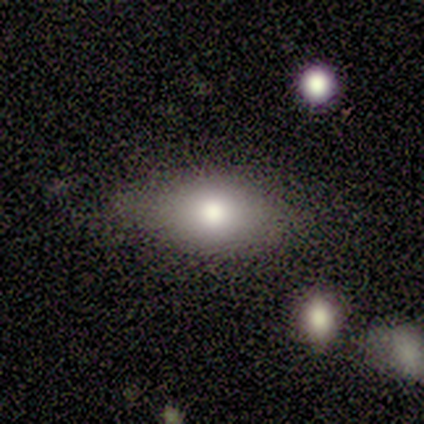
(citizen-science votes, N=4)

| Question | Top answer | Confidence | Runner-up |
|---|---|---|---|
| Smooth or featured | smooth | 100% | — |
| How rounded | in between | 100% | — |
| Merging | none | 75% | minor disturbance (25%) |